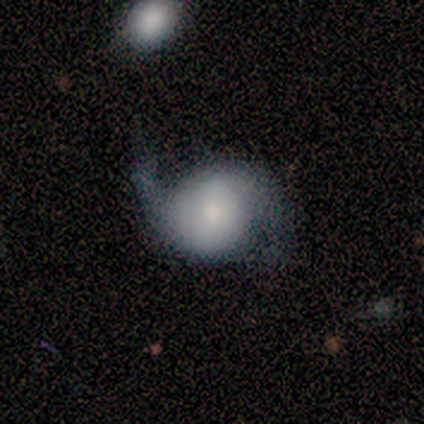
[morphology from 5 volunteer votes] type=featured or disk (80%); edge-on=no (100%); bar=weak (50%, tied with no); spiral arms=yes (100%); winding=loose (100%); arm count=2 (100%); bulge=dominant (50%); merging=none (80%).